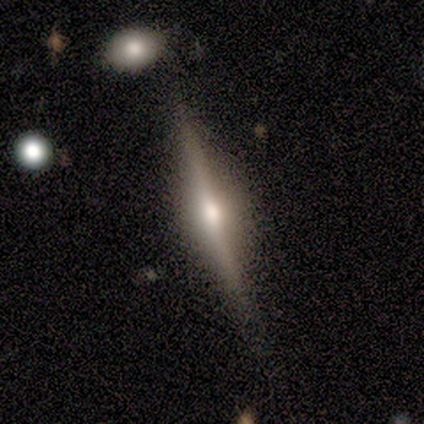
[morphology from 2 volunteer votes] Overall: featured or disk (100%). Edge-on disk: yes (100%). Edge-on bulge: rounded (100%). Merging: none (100%).